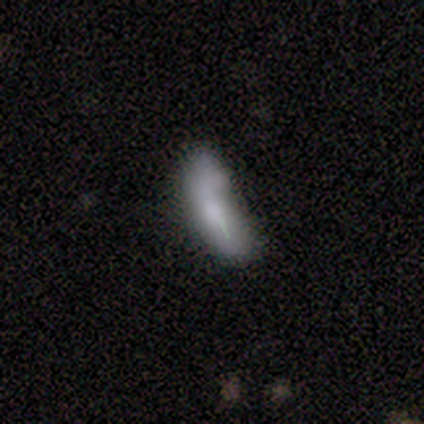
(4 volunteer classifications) featured or disk 75%, smooth 25%, star or artifact 0%. Down the decision tree: edge-on disk — no (100%); bar — no (100%); spiral arms — no (100%); bulge size — none (67%); merging — minor disturbance (50%, tied with major disturbance).